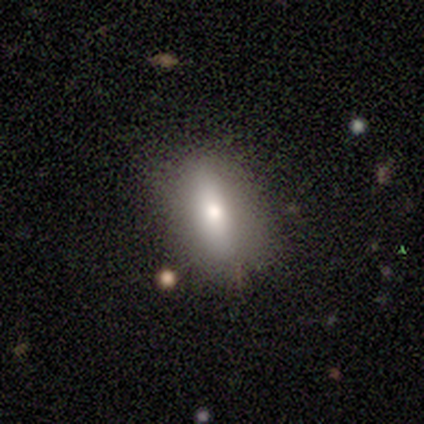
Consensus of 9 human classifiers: smooth 56%, featured or disk 22%, star or artifact 22%. Down the decision tree: how rounded — in between (60%); merging — none (100%).